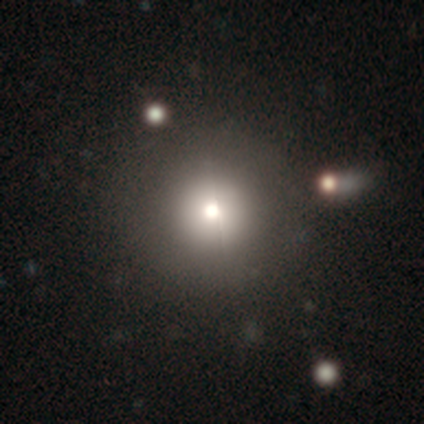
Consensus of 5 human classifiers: A smooth galaxy with no disk features (60%) that is round (100%).

Vote fractions:
- Smooth or featured? smooth: 60% / featured or disk: 40% / star or artifact: 0%
- How rounded? round: 100% / in between: 0% / cigar-shaped: 0%
- Merging? none: 60% / major disturbance: 40% / minor disturbance: 0% / merger: 0%